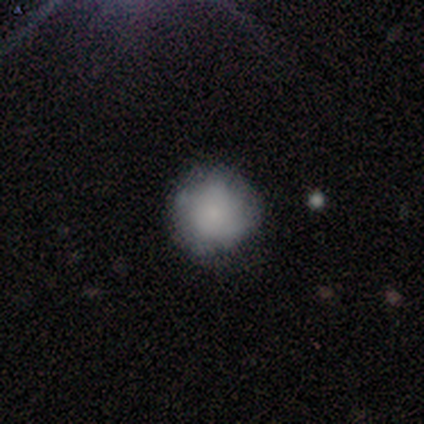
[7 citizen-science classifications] smooth 100%, featured or disk 0%, star or artifact 0%. Down the decision tree: how rounded — round (100%); merging — none (71%).